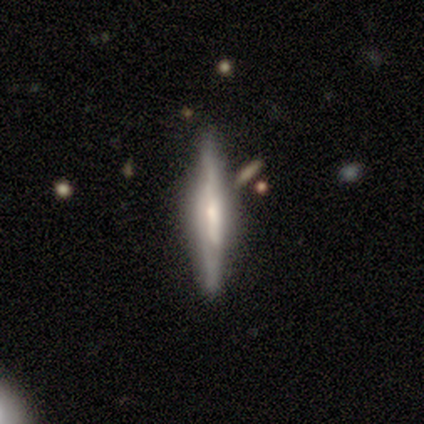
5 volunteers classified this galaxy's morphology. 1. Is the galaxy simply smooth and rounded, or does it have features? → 60% smooth, 40% featured or disk, 0% star or artifact.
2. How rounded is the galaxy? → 100% cigar-shaped, 0% round, 0% in between.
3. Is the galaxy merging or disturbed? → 100% none, 0% minor disturbance, 0% major disturbance, 0% merger.